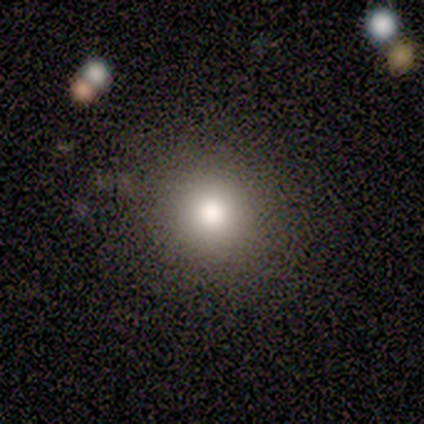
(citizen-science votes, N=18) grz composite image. It shows a smooth galaxy with no disk features (83%) that is round (100%). Merging: none (88%).